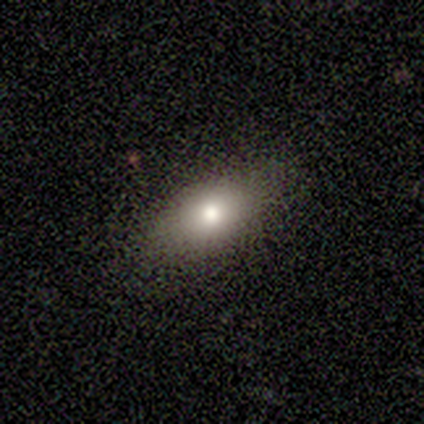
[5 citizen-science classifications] A smooth galaxy with no disk features (60%) that is in between round and cigar-shaped (100%).

Vote fractions:
- Smooth or featured? smooth: 60% / star or artifact: 40% / featured or disk: 0%
- How rounded? in between: 100% / round: 0% / cigar-shaped: 0%
- Merging? none: 100% / minor disturbance: 0% / major disturbance: 0% / merger: 0%